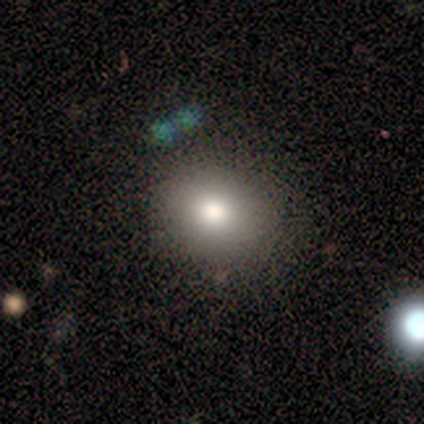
Smooth or featured?
  - featured or disk: 60% *
  - smooth: 20%
  - star or artifact: 20%
Edge-on disk?
  - no: 100% *
  - yes: 0%
Bar?
  - no: 100% *
  - strong: 0%
  - weak: 0%
Spiral arms?
  - no: 100% *
  - yes: 0%
Bulge size?
  - moderate: 67% *
  - none: 33%
  - dominant: 0%
  - large: 0%
  - small: 0%
Merging?
  - none: 50% *
  - minor disturbance: 25%
  - major disturbance: 25%
  - merger: 0%